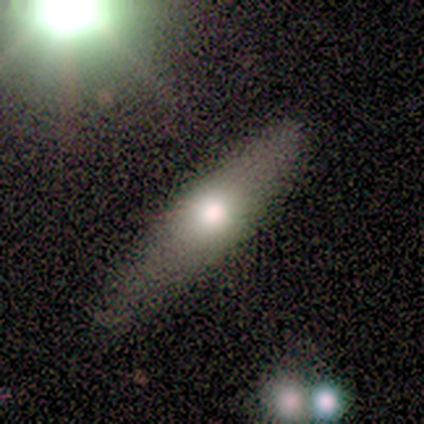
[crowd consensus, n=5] Smooth or featured: smooth — 40% (tied with featured or disk — 40%)
How rounded: in between — 50% (tied with cigar-shaped — 50%)
Merging: none — 100%